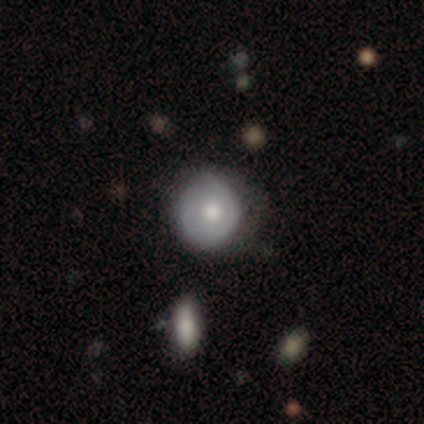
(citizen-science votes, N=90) A smooth galaxy with no disk features (54%) that is round (67%). Merging: none (60%).